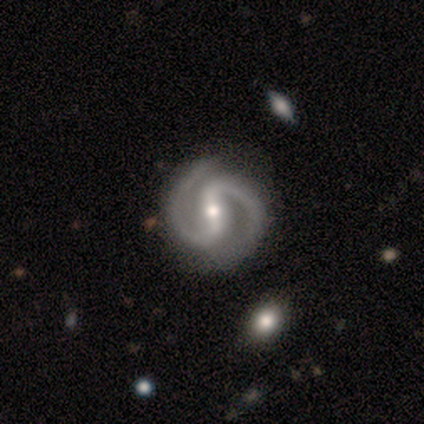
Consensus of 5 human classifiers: This appears to be a featured or disk galaxy (100%) with a strong bar (60%), 2 (100%) medium (75%) spiral arms (80%) and a small central bulge (80%). Merging: none (80%).